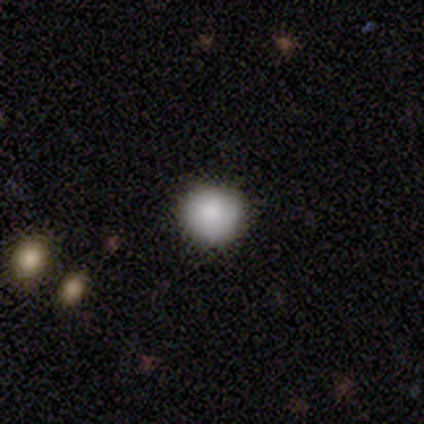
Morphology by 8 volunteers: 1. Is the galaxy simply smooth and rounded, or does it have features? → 100% smooth, 0% featured or disk, 0% star or artifact.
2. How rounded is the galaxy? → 100% round, 0% in between, 0% cigar-shaped.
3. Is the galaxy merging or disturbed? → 75% none, 25% minor disturbance, 0% major disturbance, 0% merger.